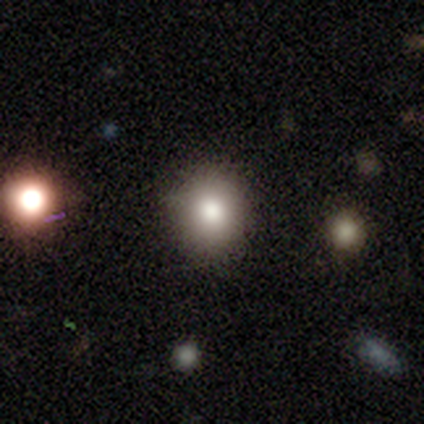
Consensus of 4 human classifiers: Smooth or featured: smooth — 50% (tied with star or artifact — 50%)
How rounded: round — 50% (tied with in between — 50%)
Merging: none — 100%